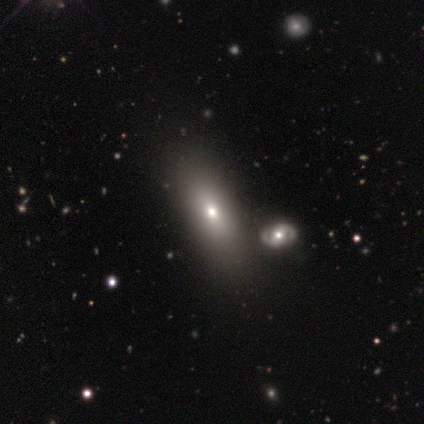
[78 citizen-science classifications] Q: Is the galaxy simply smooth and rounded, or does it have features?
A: smooth — 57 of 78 (73%).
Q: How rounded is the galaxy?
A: in between — 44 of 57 (77%).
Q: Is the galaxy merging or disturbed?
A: none — 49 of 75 (65%).